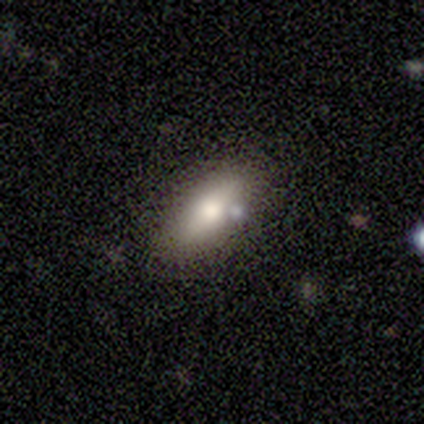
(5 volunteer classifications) A smooth galaxy with no disk features (80%) that is in between round and cigar-shaped (100%). Merging: none (75%).